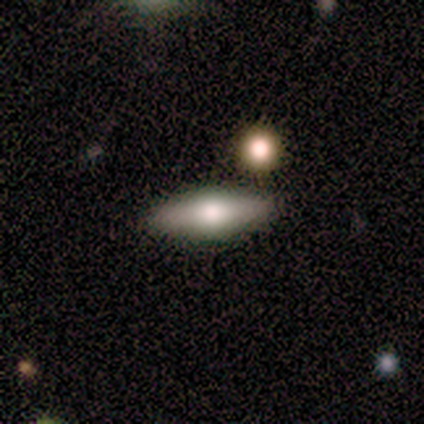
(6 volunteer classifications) smooth-or-featured: featured or disk: 67% | smooth: 33% | star or artifact: 0%
  disk-edge-on: yes: 75% | no: 25%
    edge-on-bulge: rounded: 100% | boxy: 0% | none: 0%
  merging: none: 83% | minor disturbance: 17% | major disturbance: 0% | merger: 0%